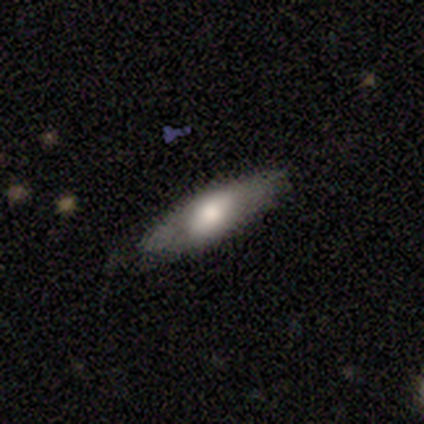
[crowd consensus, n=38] Volunteers were most divided on "smooth or featured": smooth: 55%, featured or disk: 42%, star or artifact: 3%. More confident: merging — none (81%); how rounded — in between (57%).